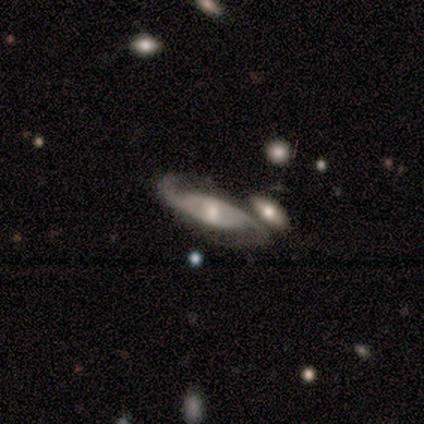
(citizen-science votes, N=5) A featured or disk galaxy (80%) with no bar (100%), 2 (100%) medium (67%) spiral arms (100%) and a moderate central bulge (100%). Merging: none (50%).